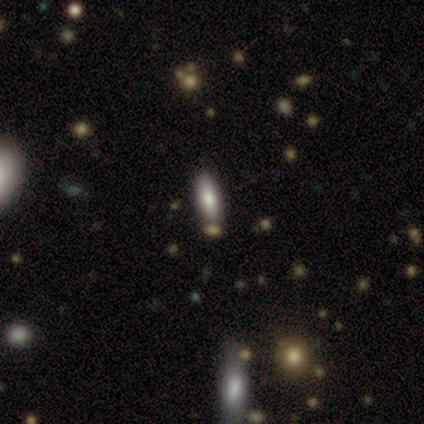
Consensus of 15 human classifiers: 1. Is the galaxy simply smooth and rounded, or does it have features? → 40% smooth (tied), 40% star or artifact (tied), 20% featured or disk.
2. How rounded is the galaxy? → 67% in between, 33% cigar-shaped, 0% round.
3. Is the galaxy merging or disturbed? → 67% none, 22% minor disturbance, 11% merger, 0% major disturbance.